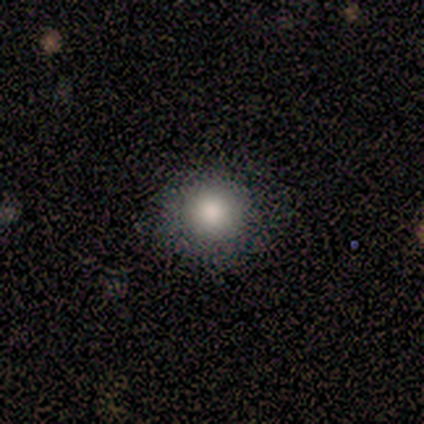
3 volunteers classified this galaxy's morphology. Smooth or featured: smooth — 100%
How rounded: round — 100%
Merging: none — 100%